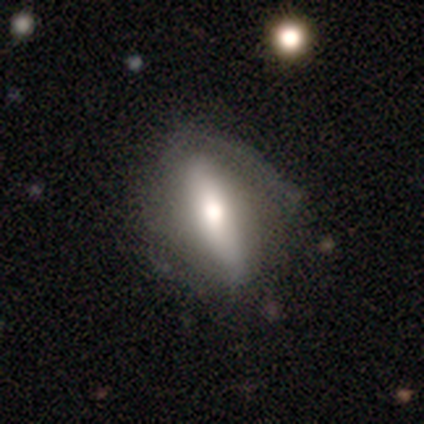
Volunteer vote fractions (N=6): Volunteers were most divided on "smooth or featured" (2-way tie): smooth: 50%, featured or disk: 50%, star or artifact: 0%; "merging" (2-way tie): none: 50%, major disturbance: 50%, minor disturbance: 0%, merger: 0%. More confident: how rounded — cigar-shaped (100%).